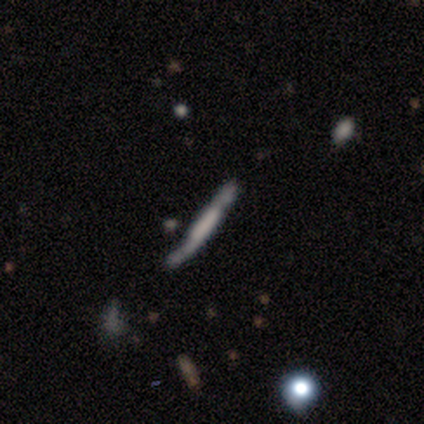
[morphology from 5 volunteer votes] type=featured or disk (60%); edge-on=yes (100%); edge-on bulge=boxy (67%); merging=none (60%).